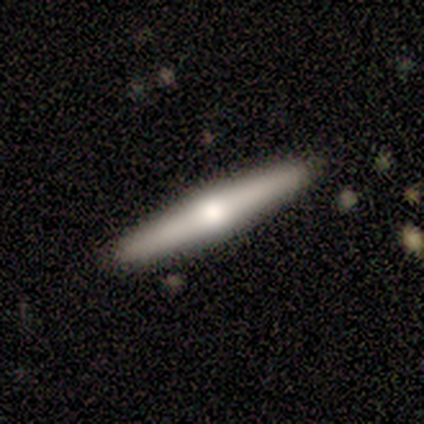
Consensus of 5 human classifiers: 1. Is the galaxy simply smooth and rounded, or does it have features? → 60% featured or disk, 40% smooth, 0% star or artifact.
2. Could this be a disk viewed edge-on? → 100% yes, 0% no.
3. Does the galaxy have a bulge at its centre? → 100% rounded, 0% boxy, 0% none.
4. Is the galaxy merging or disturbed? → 100% none, 0% minor disturbance, 0% major disturbance, 0% merger.